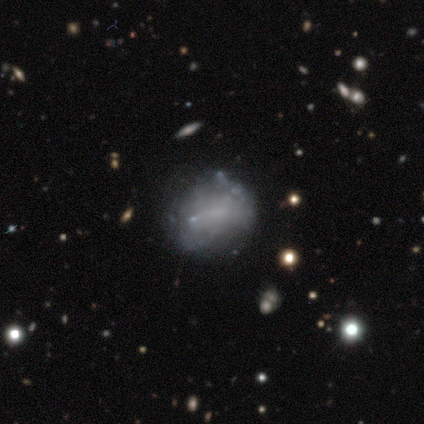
A smooth galaxy with no disk features (62%) that is round (60%).

Vote fractions:
- Smooth or featured? smooth: 62% / featured or disk: 38% / star or artifact: 0%
- How rounded? round: 60% / in between: 40% / cigar-shaped: 0%
- Merging? none: 75% / minor disturbance: 12% / major disturbance: 12% / merger: 0%